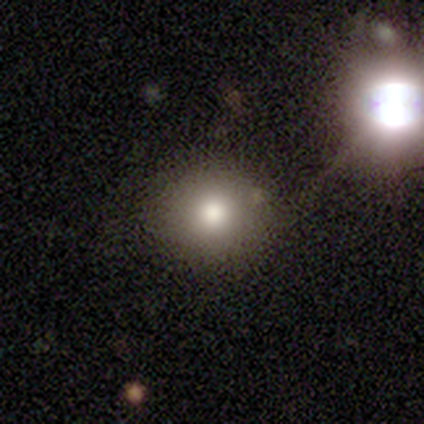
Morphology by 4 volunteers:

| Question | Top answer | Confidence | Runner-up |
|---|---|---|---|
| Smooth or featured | smooth | 75% | star or artifact (25%) |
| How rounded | round | 67% | in between (33%) |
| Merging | none | 67% | merger (33%) |